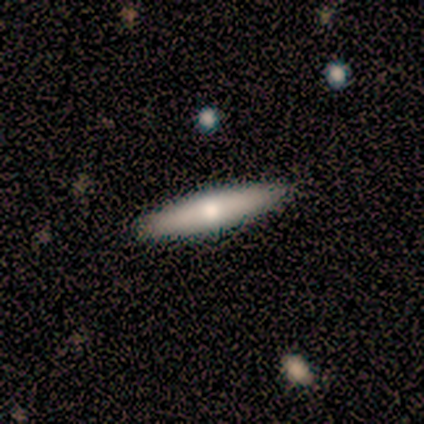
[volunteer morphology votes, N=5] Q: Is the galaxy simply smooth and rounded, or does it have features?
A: featured or disk — 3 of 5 (60%).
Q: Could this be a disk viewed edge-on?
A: yes — 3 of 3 (100%).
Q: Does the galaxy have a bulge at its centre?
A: rounded — 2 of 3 (67%).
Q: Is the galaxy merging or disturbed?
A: none — 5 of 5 (100%).